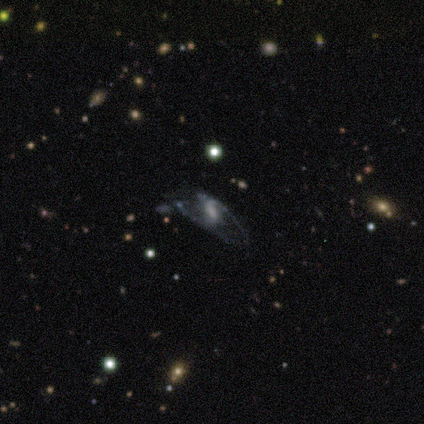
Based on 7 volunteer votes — Smooth or featured? featured or disk (86%)
Edge-on disk? no (83%)
Bar? no (60%)
Spiral arms? yes (100%)
Spiral winding? loose (80%)
Spiral arm count? 2 (80%)
Bulge size? moderate (40%)
Merging? none (83%)